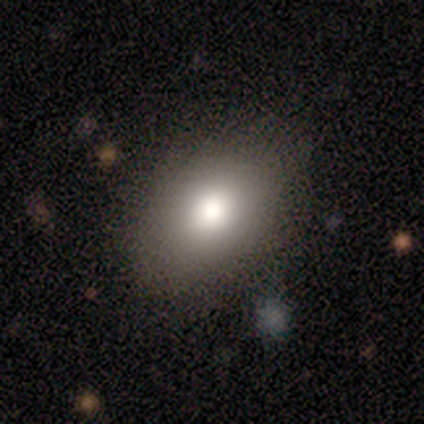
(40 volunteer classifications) Smooth or featured? 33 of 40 (82%) said smooth. How rounded? 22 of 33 (67%) said in between. Merging? 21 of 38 (55%) said none.